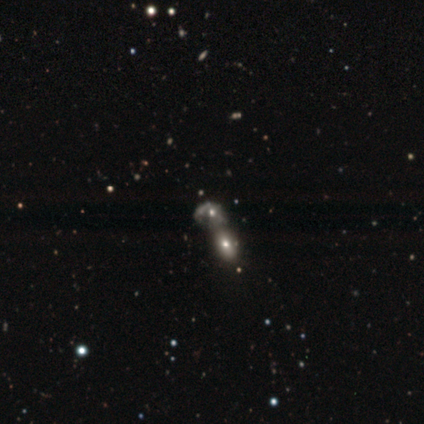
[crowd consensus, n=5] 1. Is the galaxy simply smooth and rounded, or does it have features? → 60% smooth, 20% featured or disk, 20% star or artifact.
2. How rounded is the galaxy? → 100% in between, 0% round, 0% cigar-shaped.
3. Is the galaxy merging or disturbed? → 100% merger, 0% none, 0% minor disturbance, 0% major disturbance.